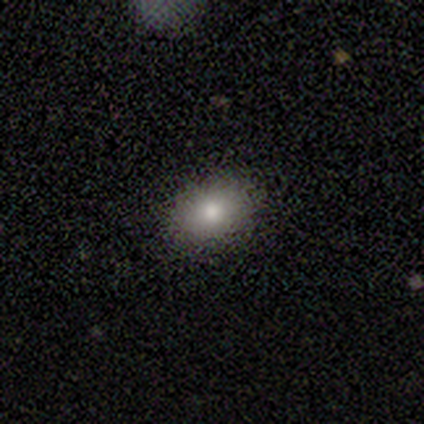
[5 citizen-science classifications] A smooth galaxy with no disk features (80%) that is in between round and cigar-shaped (100%).

Vote fractions:
- Smooth or featured? smooth: 80% / featured or disk: 20% / star or artifact: 0%
- How rounded? in between: 100% / round: 0% / cigar-shaped: 0%
- Merging? none: 100% / minor disturbance: 0% / major disturbance: 0% / merger: 0%